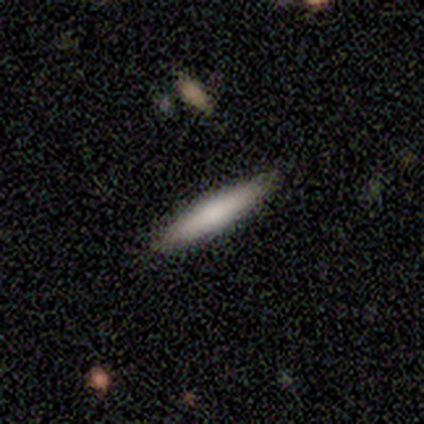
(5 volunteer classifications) Smooth or featured?
  - smooth: 60% *
  - featured or disk: 40%
  - star or artifact: 0%
How rounded?
  - cigar-shaped: 100% *
  - round: 0%
  - in between: 0%
Merging?
  - none: 100% *
  - minor disturbance: 0%
  - major disturbance: 0%
  - merger: 0%